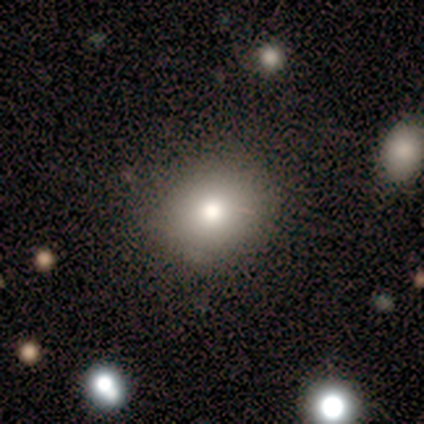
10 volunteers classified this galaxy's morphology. Smooth or featured: smooth — 60% (star or artifact — 30%)
How rounded: round — 100%
Merging: none — 86% (minor disturbance — 14%)